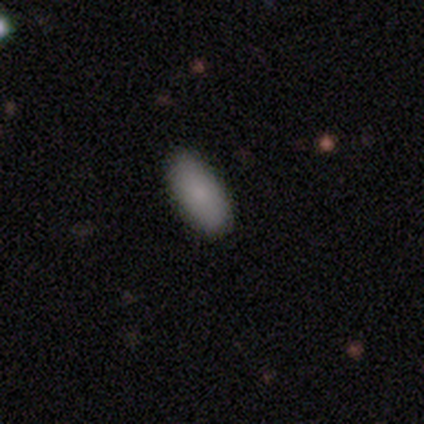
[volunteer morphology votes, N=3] type=smooth (100%); roundness=in between (100%); merging=none (100%).